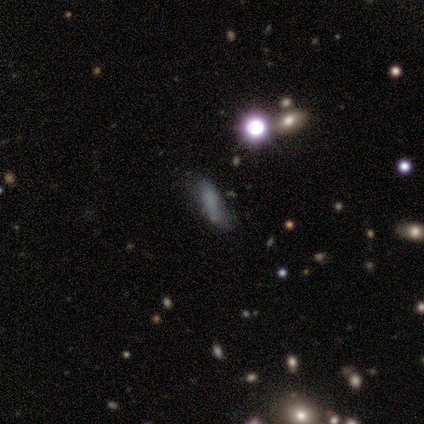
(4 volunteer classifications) A smooth galaxy with no disk features (50%) that is cigar-shaped (100%).

Vote fractions:
- Smooth or featured? smooth: 50% / featured or disk: 25% / star or artifact: 25%
- How rounded? cigar-shaped: 100% / round: 0% / in between: 0%
- Merging? minor disturbance: 67% / none: 33% / major disturbance: 0% / merger: 0%